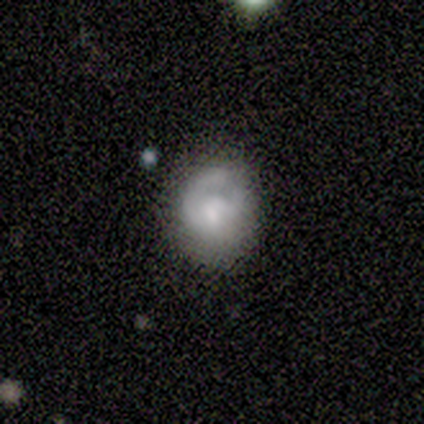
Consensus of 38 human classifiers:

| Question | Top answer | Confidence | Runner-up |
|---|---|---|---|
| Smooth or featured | smooth | 53% | featured or disk (37%) |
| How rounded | round | 80% | in between (20%) |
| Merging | none | 56% | minor disturbance (32%) |